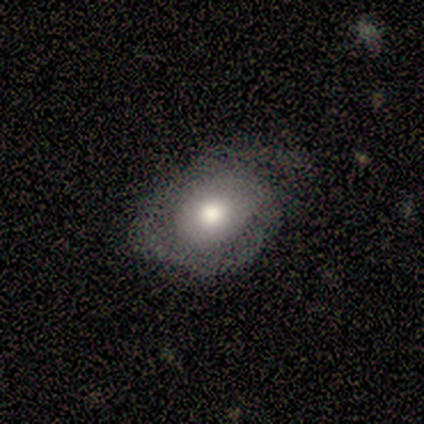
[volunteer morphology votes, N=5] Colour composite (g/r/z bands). It shows a smooth galaxy with no disk features (60%) that is in between round and cigar-shaped (100%). Merging: none (40%, tied with minor disturbance).